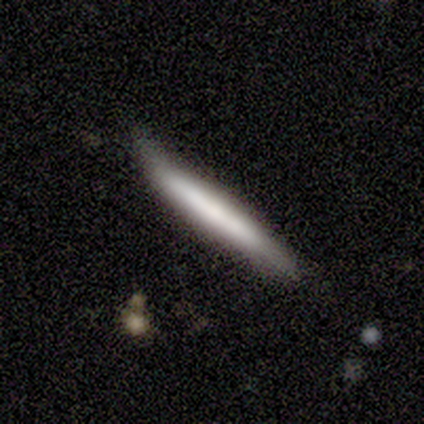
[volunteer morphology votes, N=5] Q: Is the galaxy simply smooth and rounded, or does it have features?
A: smooth — 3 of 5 (60%).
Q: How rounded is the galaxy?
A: cigar-shaped — 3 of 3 (100%).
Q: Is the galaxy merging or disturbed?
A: none — 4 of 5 (80%).